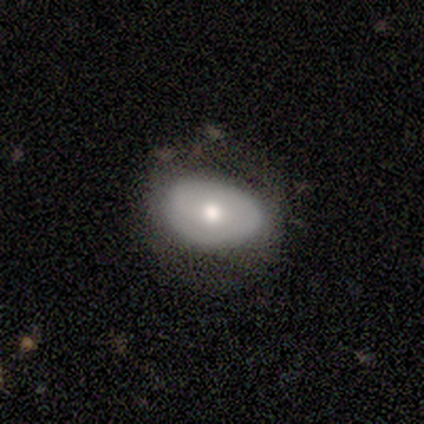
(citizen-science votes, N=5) Smooth or featured: smooth — 40% (tied with featured or disk — 40%)
How rounded: round — 50% (tied with in between — 50%)
Merging: minor disturbance — 50% (none — 25%)